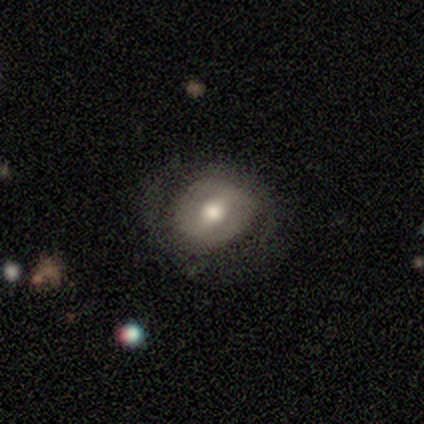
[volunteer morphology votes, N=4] Smooth or featured? smooth (75%)
How rounded? round (67%)
Merging? none (100%)